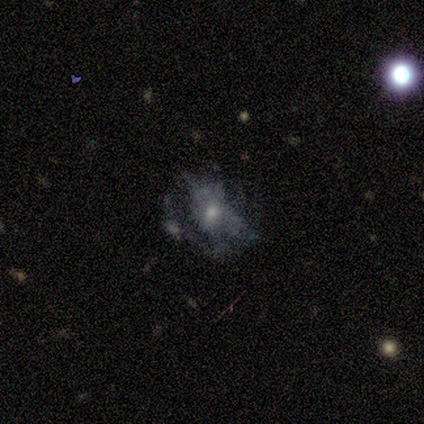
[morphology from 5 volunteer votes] A featured or disk galaxy (60%) with no bar (100%), no spiral arms (100%) and a small central bulge (100%).

Vote fractions:
- Smooth or featured? featured or disk: 60% / smooth: 40% / star or artifact: 0%
- Edge-on disk? no: 100% / yes: 0%
- Bar? no: 100% / strong: 0% / weak: 0%
- Spiral arms? no: 100% / yes: 0%
- Bulge size? small: 100% / dominant: 0% / large: 0% / moderate: 0% / none: 0%
- Merging? none: 80% / major disturbance: 20% / minor disturbance: 0% / merger: 0%